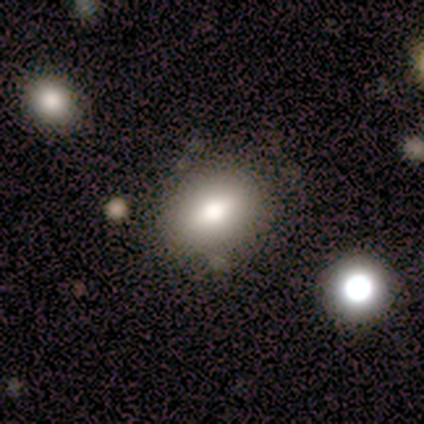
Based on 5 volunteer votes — Smooth or featured? 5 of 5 (100%) said smooth. How rounded? 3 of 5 (60%) said in between. Merging? 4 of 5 (80%) said none.